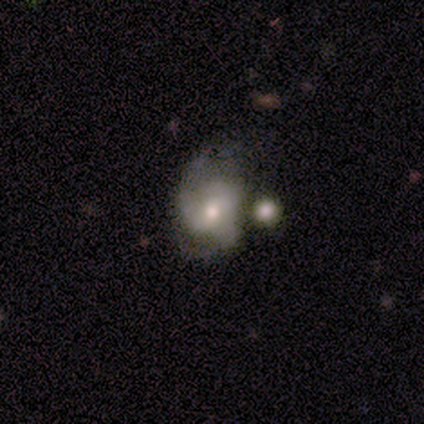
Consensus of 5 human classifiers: This appears to be a featured or disk galaxy (80%) with no bar (75%), 2 (67%) loose (67%) spiral arms (75%) and a small central bulge (75%). Merging: major disturbance (40%).